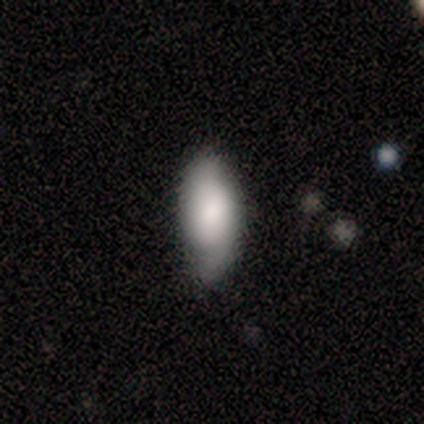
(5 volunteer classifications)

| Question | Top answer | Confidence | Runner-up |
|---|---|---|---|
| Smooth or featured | smooth | 100% | — |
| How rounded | in between | 100% | — |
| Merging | minor disturbance | 60% | none (40%) |